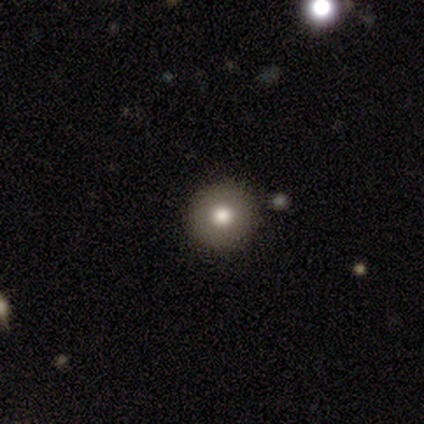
Smooth or featured? 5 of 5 (100%) said smooth. How rounded? 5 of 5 (100%) said round. Merging? 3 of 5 (60%) said none.